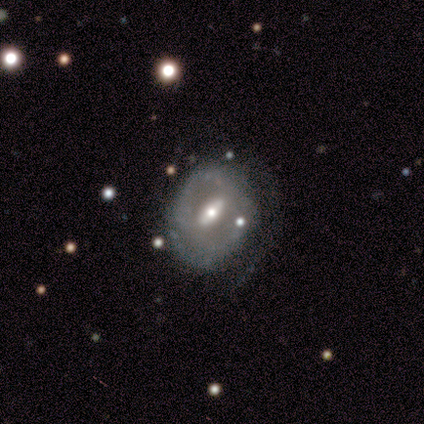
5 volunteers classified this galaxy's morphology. Smooth or featured? 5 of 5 (100%) said featured or disk. Edge-on disk? 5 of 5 (100%) said no. Bar? 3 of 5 (60%) said strong. Spiral arms? 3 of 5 (60%) said yes. Spiral winding? 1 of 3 (33%, tied with medium and loose) said tight. Spiral arm count? 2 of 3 (67%) said can't tell. Bulge size? 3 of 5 (60%) said moderate. Merging? 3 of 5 (60%) said none.